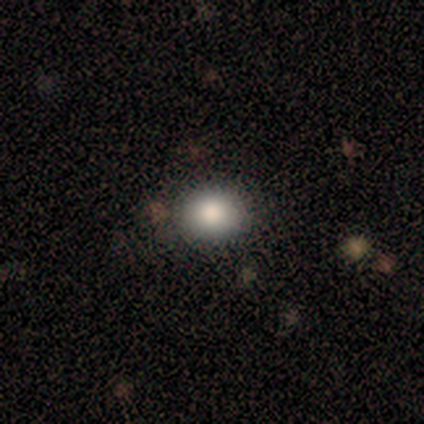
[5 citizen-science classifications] Morphology: type=smooth (100%); roundness=round (100%); merging=none (100%).